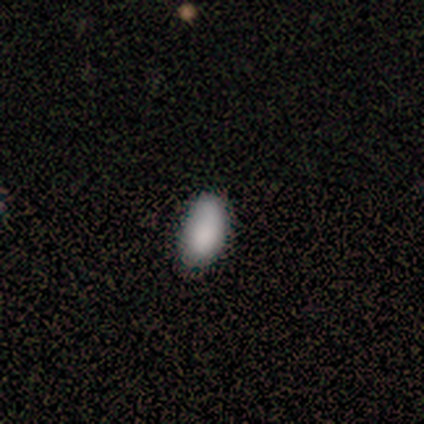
This appears to be a smooth galaxy with no disk features (100%) that is in between round and cigar-shaped (100%). Merging: none (50%, tied with minor disturbance).